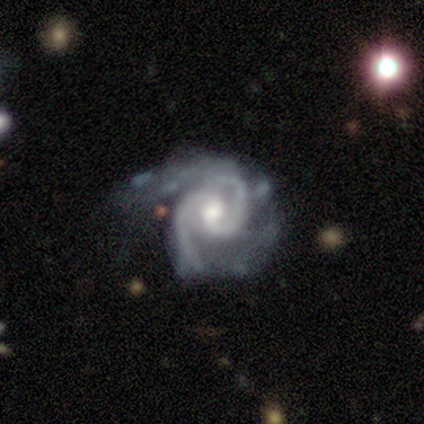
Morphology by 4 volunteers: Smooth or featured?
  - featured or disk: 100% *
  - smooth: 0%
  - star or artifact: 0%
Edge-on disk?
  - no: 100% *
  - yes: 0%
Bar?
  - no: 75% *
  - weak: 25%
  - strong: 0%
Spiral arms?
  - yes: 100% *
  - no: 0%
Spiral winding?
  - medium: 100% *
  - tight: 0%
  - loose: 0%
Spiral arm count?
  - 2: 100% *
  - 1: 0%
  - 3: 0%
  - 4: 0%
  - more than 4: 0%
  - can't tell: 0%
Bulge size?
  - moderate: 75% *
  - small: 25%
  - dominant: 0%
  - large: 0%
  - none: 0%
Merging?
  - major disturbance: 50% *
  - none: 25%
  - minor disturbance: 25%
  - merger: 0%